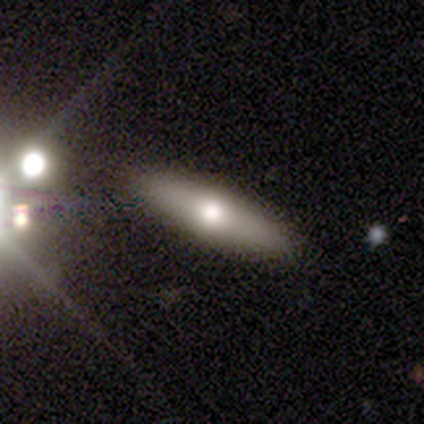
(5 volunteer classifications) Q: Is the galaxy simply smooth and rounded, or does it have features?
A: smooth — 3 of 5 (60%).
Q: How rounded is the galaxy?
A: cigar-shaped — 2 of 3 (67%).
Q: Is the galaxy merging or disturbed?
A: none — 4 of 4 (100%).